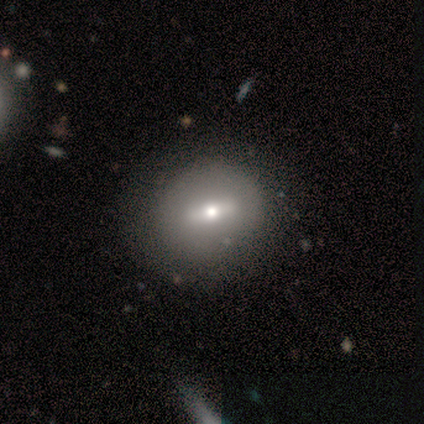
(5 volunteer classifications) Smooth or featured? 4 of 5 (80%) said featured or disk. Edge-on disk? 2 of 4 (50%, tied with no) said yes. Edge-on bulge? 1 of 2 (50%, tied with rounded) said boxy. Merging? 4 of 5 (80%) said none.